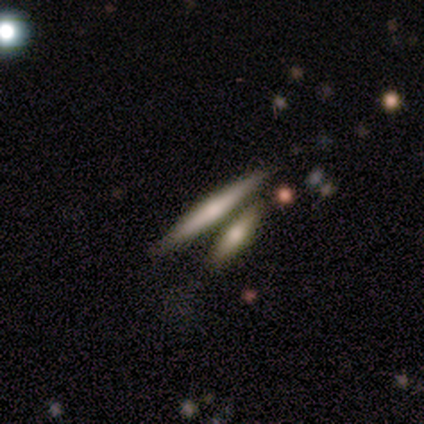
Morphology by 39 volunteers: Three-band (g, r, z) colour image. It shows a featured or disk galaxy (56%) viewed edge-on (95%) with a rounded central bulge (76%). Merging: none (58%).